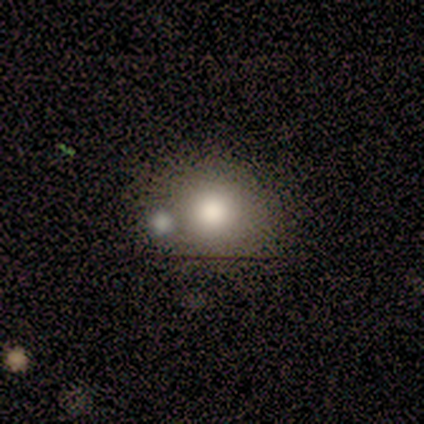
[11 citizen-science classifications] Smooth or featured: smooth — 82% (star or artifact — 18%)
How rounded: round — 67% (in between — 33%)
Merging: none — 56% (merger — 33%)